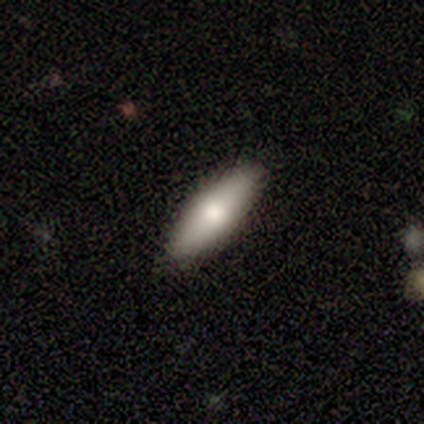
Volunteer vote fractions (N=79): Smooth or featured: smooth — 77% (featured or disk — 22%)
How rounded: in between — 66% (cigar-shaped — 34%)
Merging: none — 47% (minor disturbance — 5%)